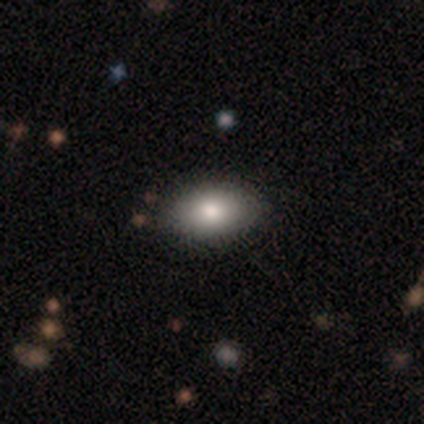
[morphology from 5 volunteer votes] Q: Smooth or featured?
A: smooth (100%)
Q: How rounded?
A: in between (80%); runner-up: round (20%)
Q: Merging?
A: none (100%)